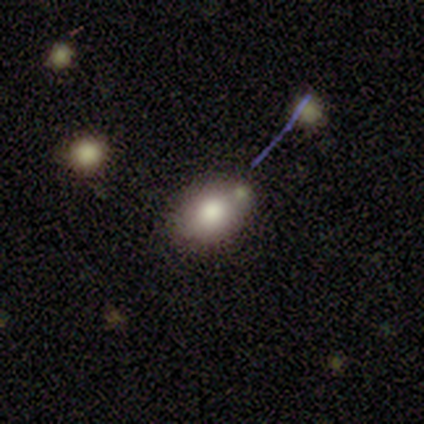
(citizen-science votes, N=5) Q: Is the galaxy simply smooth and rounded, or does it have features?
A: smooth — 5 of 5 (100%).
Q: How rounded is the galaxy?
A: in between — 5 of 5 (100%).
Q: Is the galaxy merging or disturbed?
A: none — 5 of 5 (100%).